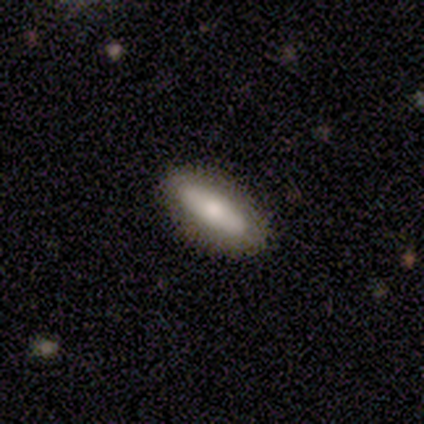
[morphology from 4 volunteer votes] Volunteers were most divided on "how rounded": in between: 67%, cigar-shaped: 33%, round: 0%. More confident: merging — none (100%); smooth or featured — smooth (75%).